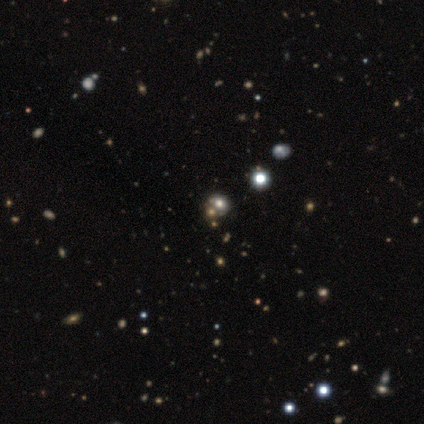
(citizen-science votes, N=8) Smooth or featured?
  - star or artifact: 75% *
  - smooth: 12%
  - featured or disk: 12%